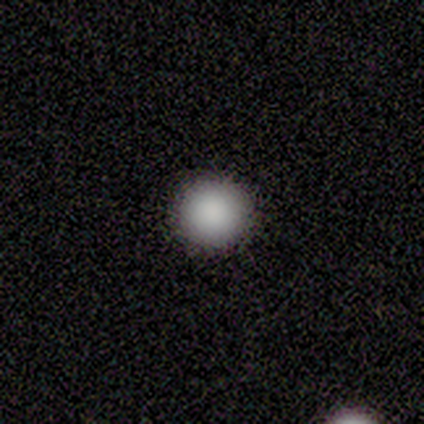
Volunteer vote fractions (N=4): Q: Smooth or featured?
A: smooth (75%); runner-up: featured or disk (25%)
Q: How rounded?
A: round (100%)
Q: Merging?
A: none (75%); runner-up: minor disturbance (25%)